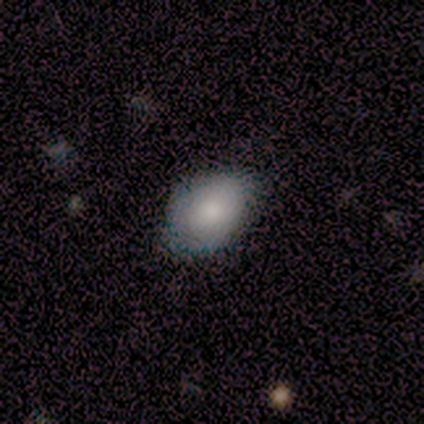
Smooth or featured: smooth — 80% (featured or disk — 20%)
How rounded: in between — 75% (round — 25%)
Merging: none — 80% (major disturbance — 20%)